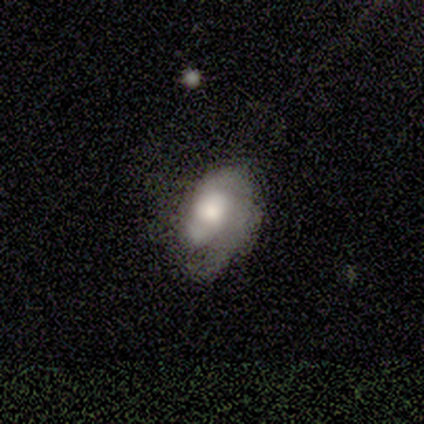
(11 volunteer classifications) A featured or disk galaxy (64%) with no bar (71%), 1 (29%, tied with 2 and can't tell) medium (57%) spiral arms (100%) and a large central bulge (43%, tied with moderate). Merging: minor disturbance (40%, tied with major disturbance).